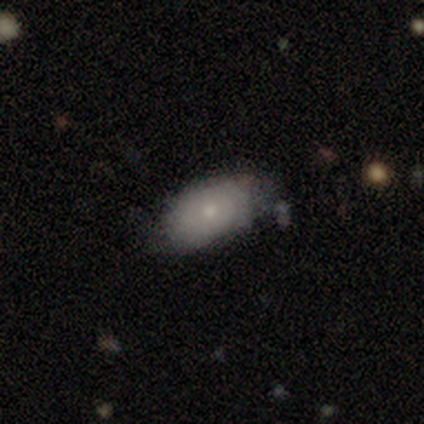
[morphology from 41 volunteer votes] smooth-or-featured: smooth: 80% | featured or disk: 17% | star or artifact: 2%
  how-rounded: in between: 97% | round: 3% | cigar-shaped: 0%
  merging: none: 57% | minor disturbance: 25% | major disturbance: 12% | merger: 5%